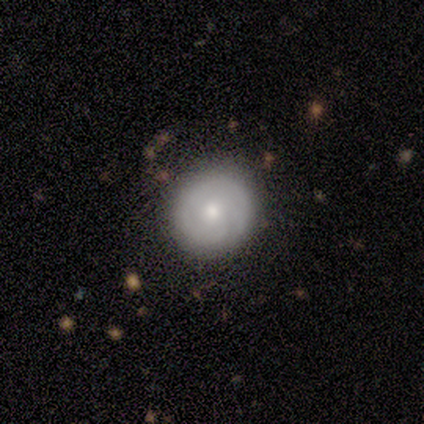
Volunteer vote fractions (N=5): smooth_or_featured: featured or disk (p=0.80) [alt: smooth p=0.20]
disk_edge_on: no (p=1.00)
bar: no (p=1.00)
has_spiral_arms: yes (p=0.75) [alt: no p=0.25]
spiral_winding: tight (p=0.67) [alt: loose p=0.33]
spiral_arm_count: 2 (p=0.67) [alt: can't tell p=0.33]
bulge_size: moderate (p=0.50) [tied with: small p=0.50]
merging: none (p=1.00)